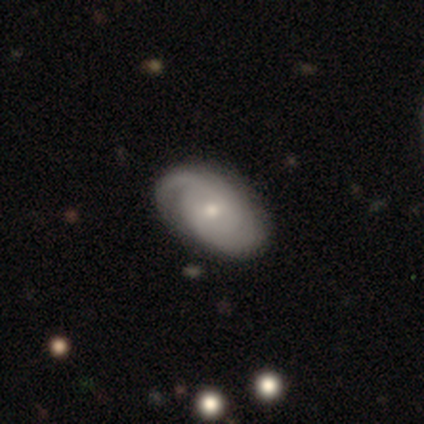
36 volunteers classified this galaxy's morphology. Overall: featured or disk (86%). Edge-on disk: no (100%). Bar: no (55%; weak 45%). Spiral arms: yes (94%). Spiral arm count: 2 (41%; can't tell 28%). Spiral winding: tight (72%). Bulge size: small (65%; moderate 35%). Merging: none (86%).